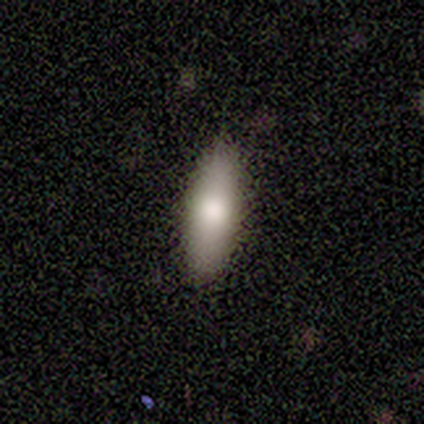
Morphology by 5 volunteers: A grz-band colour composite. It shows a smooth galaxy with no disk features (100%) that is in between round and cigar-shaped (60%). Merging: none (100%).